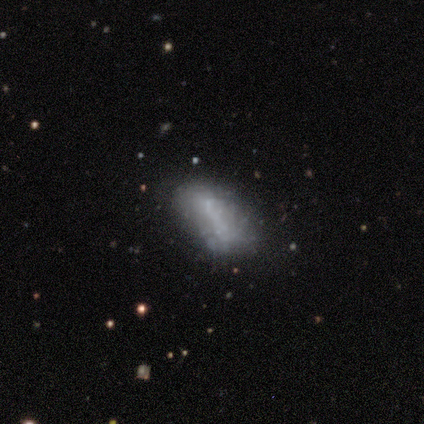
Q: Smooth or featured?
A: smooth (57%); runner-up: featured or disk (43%)
Q: How rounded?
A: in between (100%)
Q: Merging?
A: minor disturbance (43%); runner-up: none (29%)